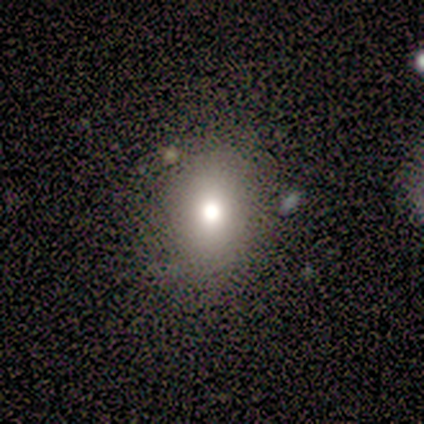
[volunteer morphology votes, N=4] A smooth galaxy with no disk features (50%, tied with star or artifact) that is round (50%, tied with in between).

Vote fractions:
- Smooth or featured? smooth: 50% (tied) / star or artifact: 50% (tied) / featured or disk: 0%
- How rounded? round: 50% (tied) / in between: 50% (tied) / cigar-shaped: 0%
- Merging? none: 100% / minor disturbance: 0% / major disturbance: 0% / merger: 0%